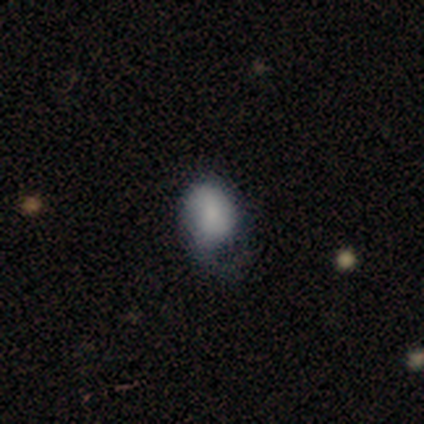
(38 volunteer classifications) Overall: smooth (55%; featured or disk 37%). How rounded: in between (67%; round 33%). Merging: minor disturbance (40%; major disturbance 34%).